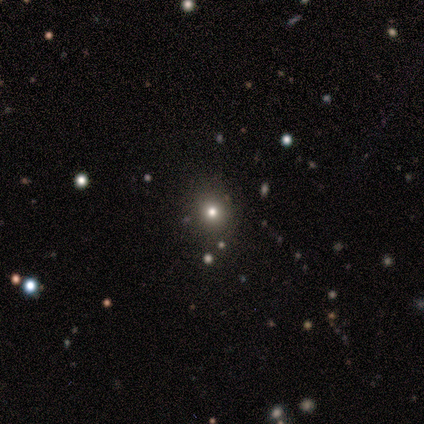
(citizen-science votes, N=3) Smooth or featured? 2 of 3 (67%) said smooth. How rounded? 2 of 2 (100%) said round. Merging? 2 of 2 (100%) said none.